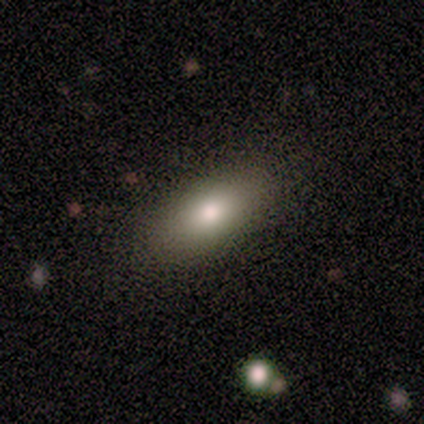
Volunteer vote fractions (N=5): Smooth or featured: smooth — 80% (star or artifact — 20%)
How rounded: in between — 75% (cigar-shaped — 25%)
Merging: none — 75% (minor disturbance — 25%)